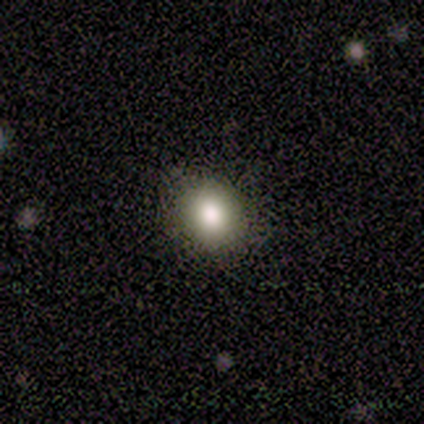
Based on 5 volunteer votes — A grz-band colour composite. It shows a smooth galaxy with no disk features (80%) that is round (100%). Merging: none (100%).